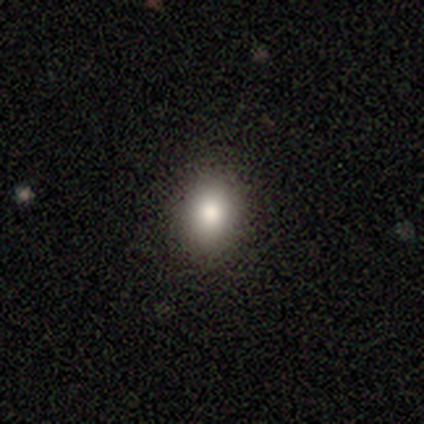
Morphology: type=smooth (100%); roundness=in between (80%); merging=none (100%).